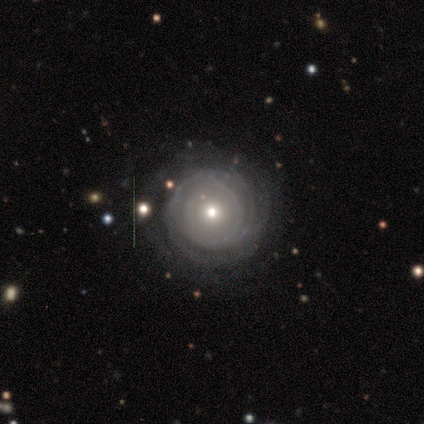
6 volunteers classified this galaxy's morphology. Smooth or featured? featured or disk (100%)
Edge-on disk? no (100%)
Bar? no (67%)
Spiral arms? yes (100%)
Spiral winding? tight (67%)
Spiral arm count? can't tell (67%)
Bulge size? moderate (67%)
Merging? none (100%)